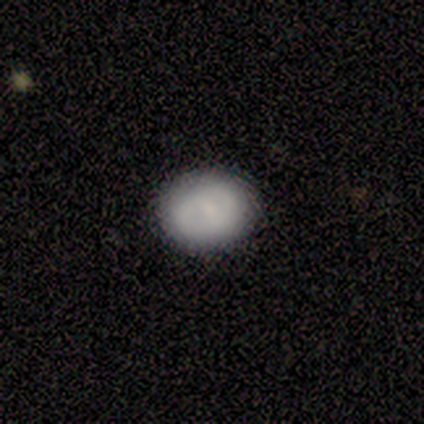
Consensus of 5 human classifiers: A featured or disk galaxy (60%) with no bar (100%), no spiral arms (67%) and a moderate central bulge (33%, tied with small and none).

Vote fractions:
- Smooth or featured? featured or disk: 60% / smooth: 40% / star or artifact: 0%
- Edge-on disk? no: 100% / yes: 0%
- Bar? no: 100% / strong: 0% / weak: 0%
- Spiral arms? no: 67% / yes: 33%
- Bulge size? moderate: 33% (tied) / small: 33% (tied) / none: 33% (tied) / dominant: 0% / large: 0%
- Merging? none: 100% / minor disturbance: 0% / major disturbance: 0% / merger: 0%